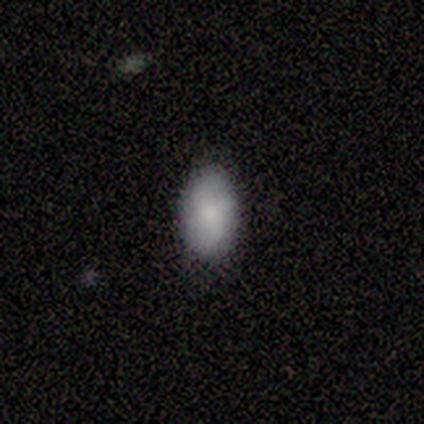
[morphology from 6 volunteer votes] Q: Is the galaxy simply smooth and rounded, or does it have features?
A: smooth — 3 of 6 (50%, tied with featured or disk).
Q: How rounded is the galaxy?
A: in between — 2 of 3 (67%).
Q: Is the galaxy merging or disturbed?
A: none — 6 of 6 (100%).